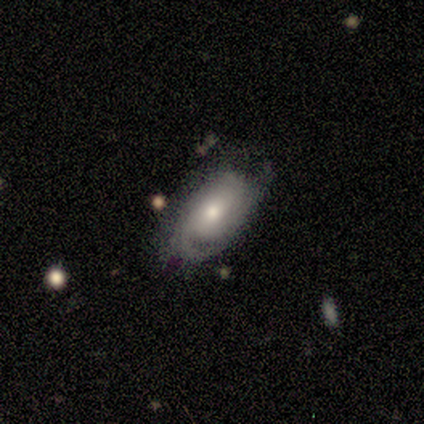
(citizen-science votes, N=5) A smooth galaxy with no disk features (60%) that is in between round and cigar-shaped (67%). Merging: none (40%, tied with minor disturbance).